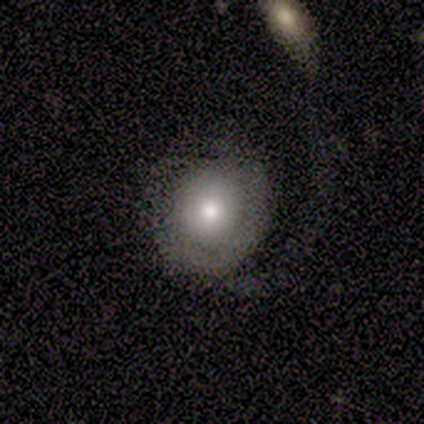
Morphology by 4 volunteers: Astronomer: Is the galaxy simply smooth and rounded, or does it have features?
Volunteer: smooth — 50%, tied with featured or disk at 50%.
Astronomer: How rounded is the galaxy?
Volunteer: round — 50%, tied with in between at 50%.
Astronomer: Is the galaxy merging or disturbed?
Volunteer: major disturbance — 50%.